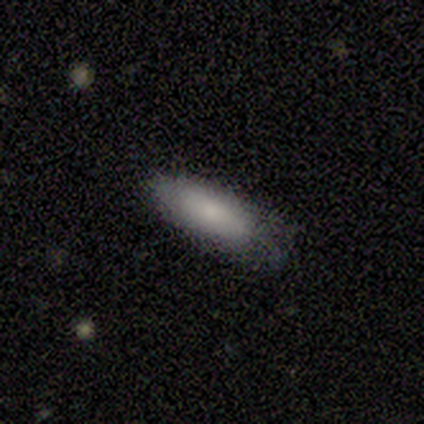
This appears to be a smooth galaxy with no disk features (80%) that is in between round and cigar-shaped (75%). Merging: none (75%).